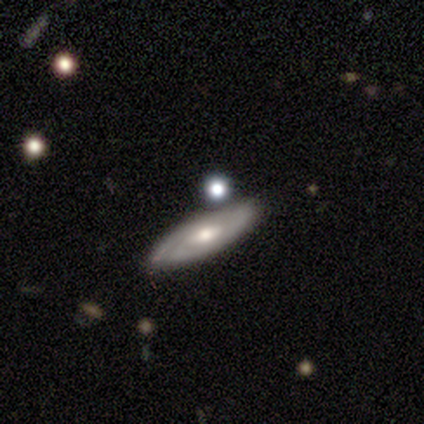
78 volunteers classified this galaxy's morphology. smooth-or-featured: featured or disk: 64% | smooth: 33% | star or artifact: 3%
  disk-edge-on: no: 70% | yes: 30%
    bar: no: 66% | weak: 34% | strong: 0%
    has-spiral-arms: yes: 69% | no: 31%
      spiral-winding: tight: 75% | medium: 21% | loose: 4%
      spiral-arm-count: can't tell: 58% | 2: 25% | 1: 17% | 3: 0% | 4: 0% | more than 4: 0%
    bulge-size: moderate: 63% | small: 23% | large: 11% | dominant: 3% | none: 0%
  merging: none: 36% | merger: 20% | minor disturbance: 9% | major disturbance: 0%